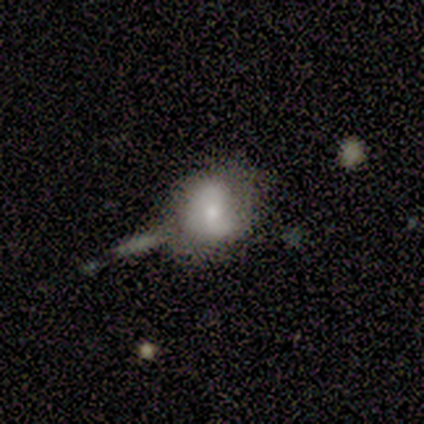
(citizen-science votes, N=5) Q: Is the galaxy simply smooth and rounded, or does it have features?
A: featured or disk — 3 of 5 (60%).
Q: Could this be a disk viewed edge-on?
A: no — 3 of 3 (100%).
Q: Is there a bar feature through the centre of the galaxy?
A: no — 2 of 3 (67%).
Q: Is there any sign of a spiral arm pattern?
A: yes — 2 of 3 (67%).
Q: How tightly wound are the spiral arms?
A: medium — 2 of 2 (100%).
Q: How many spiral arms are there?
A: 2 — 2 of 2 (100%).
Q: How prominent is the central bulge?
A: moderate — 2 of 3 (67%).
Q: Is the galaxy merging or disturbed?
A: major disturbance — 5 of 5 (100%).